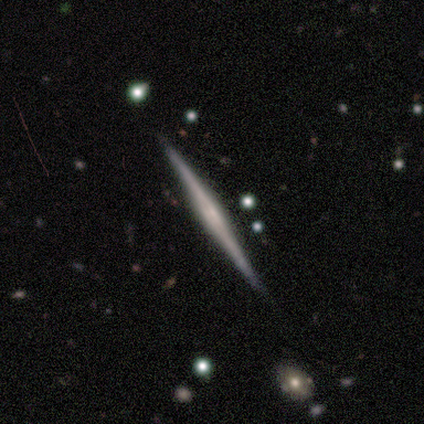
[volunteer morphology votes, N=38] Volunteers were most divided on "edge-on bulge": none: 40%, rounded: 37%, boxy: 23%. More confident: edge-on disk — yes (100%); smooth or featured — featured or disk (92%); merging — none (89%).